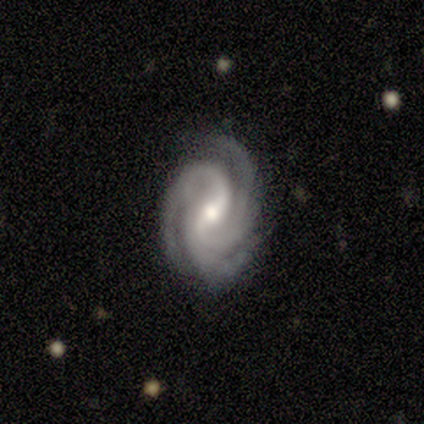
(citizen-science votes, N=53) This appears to be a featured or disk galaxy (91%) with a weak bar (44%), 3 (85%) tight (50%) spiral arms (100%) and a moderate central bulge (65%). Merging: none (80%).